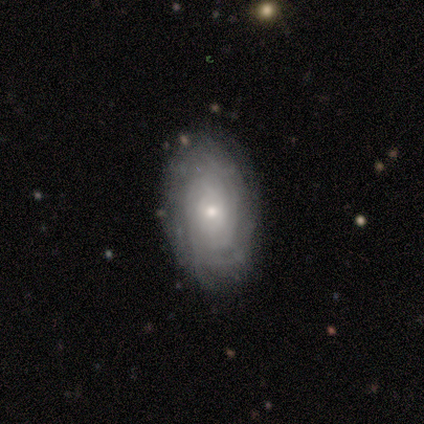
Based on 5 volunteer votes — Volunteers were most divided on "bar": no: 67%, weak: 33%, strong: 0%. More confident: spiral arms — yes (100%); spiral winding — tight (100%); bulge size — small (100%); smooth or featured — featured or disk (80%); merging — none (80%); edge-on disk — no (75%); spiral arm count — can't tell (67%).